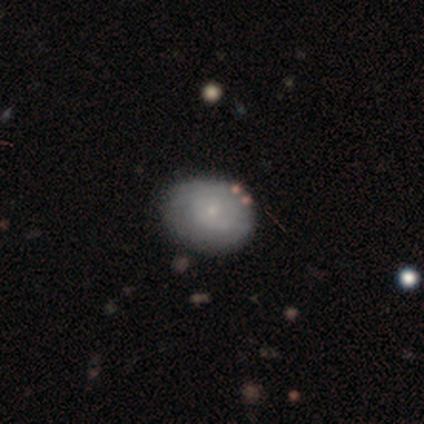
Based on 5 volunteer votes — A featured or disk galaxy (60%) with a weak bar (67%), tight (100%) spiral arms (100%) and a small central bulge (67%). Merging: none (100%).